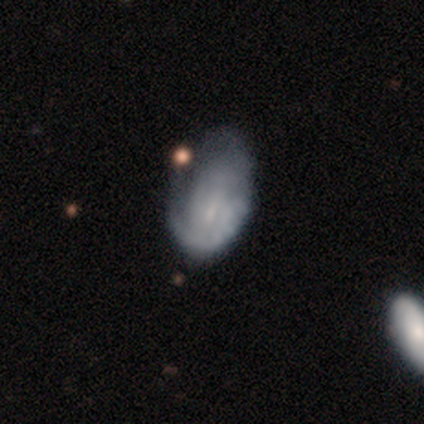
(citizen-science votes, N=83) Smooth or featured? 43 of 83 (52%) said smooth. How rounded? 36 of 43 (84%) said in between. Merging? 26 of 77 (34%) said minor disturbance.